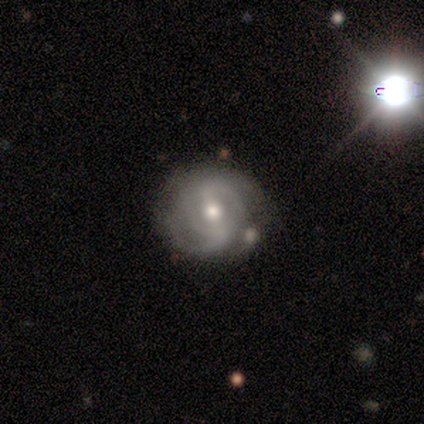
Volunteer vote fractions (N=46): Volunteers were most divided on "spiral winding" (2-way tie): tight: 45%, medium: 45%, loose: 9%. Remaining: edge-on disk — no (100%); spiral arms — yes (94%); bulge size — moderate (77%); merging — none (76%); smooth or featured — featured or disk (76%); spiral arm count — 2 (64%); bar — strong (46%).